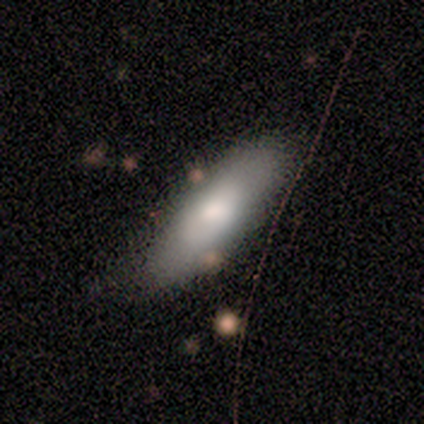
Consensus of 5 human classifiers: This appears to be a smooth galaxy with no disk features (100%) that is in between round and cigar-shaped (80%). Merging: none (100%).